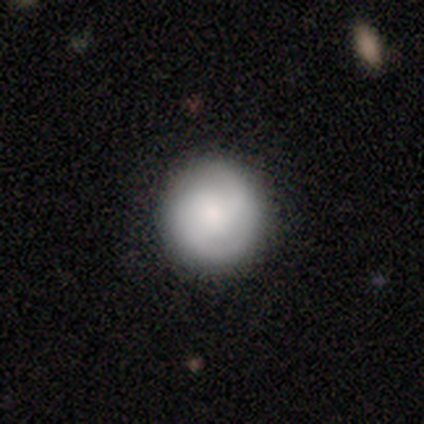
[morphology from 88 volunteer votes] smooth-or-featured: smooth: 64% | featured or disk: 32% | star or artifact: 5%
  how-rounded: round: 95% | in between: 5% | cigar-shaped: 0%
  merging: none: 80% | minor disturbance: 12% | major disturbance: 8% | merger: 0%